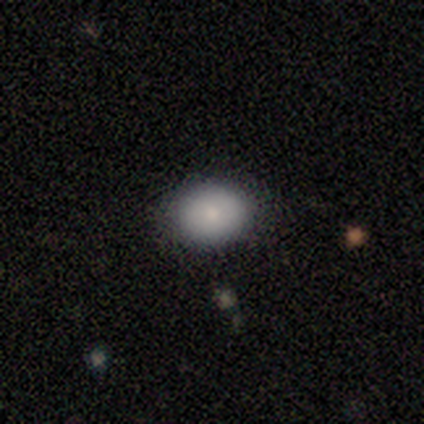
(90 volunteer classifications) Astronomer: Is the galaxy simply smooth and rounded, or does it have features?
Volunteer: smooth — 86%.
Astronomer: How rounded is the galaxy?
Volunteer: in between — 62%.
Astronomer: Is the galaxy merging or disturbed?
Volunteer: none — 83%.